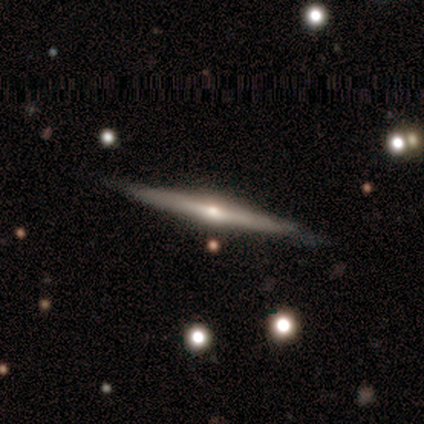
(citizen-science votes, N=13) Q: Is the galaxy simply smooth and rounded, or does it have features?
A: featured or disk — 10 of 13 (77%).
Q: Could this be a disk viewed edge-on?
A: yes — 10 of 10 (100%).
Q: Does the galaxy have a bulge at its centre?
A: rounded — 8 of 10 (80%).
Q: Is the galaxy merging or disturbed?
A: none — 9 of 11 (82%).